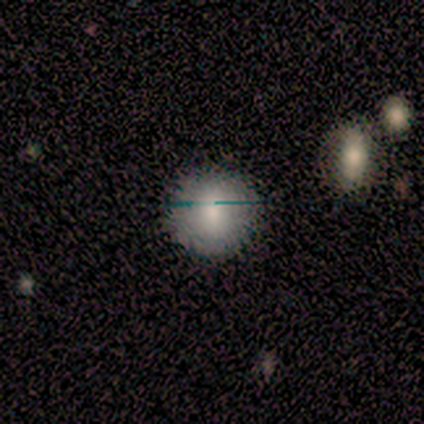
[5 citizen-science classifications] Q: Smooth or featured?
A: smooth (100%)
Q: How rounded?
A: round (100%)
Q: Merging?
A: none (80%); runner-up: minor disturbance (20%)